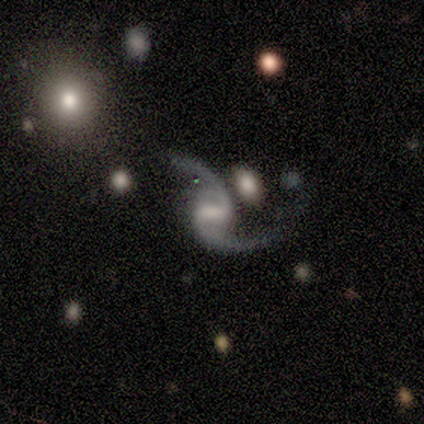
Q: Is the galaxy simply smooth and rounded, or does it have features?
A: featured or disk — 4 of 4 (100%).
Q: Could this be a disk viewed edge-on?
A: no — 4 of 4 (100%).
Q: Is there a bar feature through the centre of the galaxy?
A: weak — 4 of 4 (100%).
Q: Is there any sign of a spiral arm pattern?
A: yes — 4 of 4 (100%).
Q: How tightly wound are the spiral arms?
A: loose — 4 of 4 (100%).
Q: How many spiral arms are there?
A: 2 — 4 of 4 (100%).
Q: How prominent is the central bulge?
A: moderate — 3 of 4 (75%).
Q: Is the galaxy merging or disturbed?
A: none — 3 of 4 (75%).